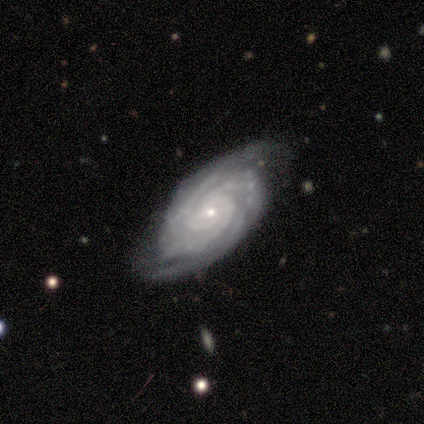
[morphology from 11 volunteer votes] A featured or disk galaxy (100%) with no bar (100%), 3 (36%) tight (82%) spiral arms (100%) and a small central bulge (100%).

Vote fractions:
- Smooth or featured? featured or disk: 100% / smooth: 0% / star or artifact: 0%
- Edge-on disk? no: 100% / yes: 0%
- Bar? no: 100% / strong: 0% / weak: 0%
- Spiral arms? yes: 100% / no: 0%
- Spiral winding? tight: 82% / medium: 18% / loose: 0%
- Spiral arm count? 3: 36% / can't tell: 27% / 4: 18% / 2: 9% / more than 4: 9% / 1: 0%
- Bulge size? small: 100% / dominant: 0% / large: 0% / moderate: 0% / none: 0%
- Merging? none: 82% / minor disturbance: 18% / major disturbance: 0% / merger: 0%